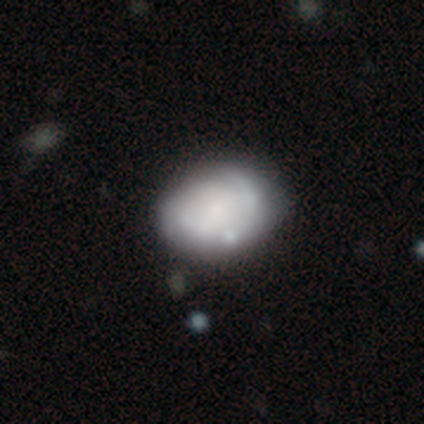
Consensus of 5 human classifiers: smooth-or-featured: smooth: 80% | featured or disk: 20% | star or artifact: 0%
  how-rounded: in between: 75% | round: 25% | cigar-shaped: 0%
  merging: minor disturbance: 40% (tied) | major disturbance: 40% (tied) | none: 20% | merger: 0%